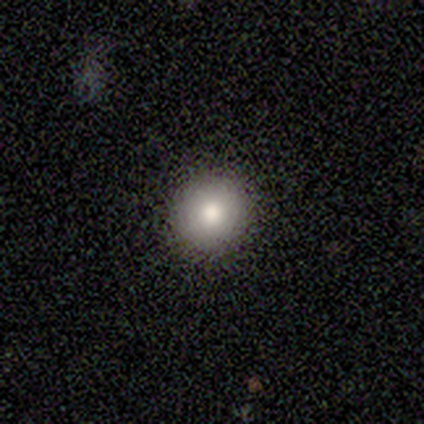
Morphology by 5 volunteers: Volunteers were most divided on "smooth or featured": smooth: 60%, featured or disk: 20%, star or artifact: 20%. More confident: how rounded — round (100%); merging — none (100%).